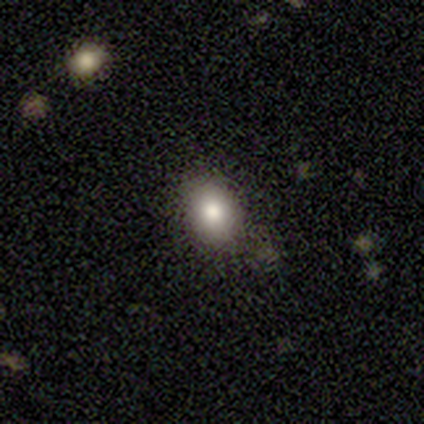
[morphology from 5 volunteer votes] This is clearly a smooth galaxy (80%). How rounded: possibly round (50%, tied with in between). Merging: possibly none (50%).